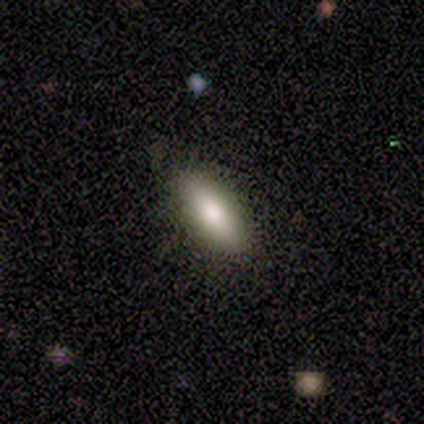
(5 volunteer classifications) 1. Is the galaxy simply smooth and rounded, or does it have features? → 80% smooth, 20% star or artifact, 0% featured or disk.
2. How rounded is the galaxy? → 75% in between, 25% cigar-shaped, 0% round.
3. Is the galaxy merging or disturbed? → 75% none, 25% minor disturbance, 0% major disturbance, 0% merger.